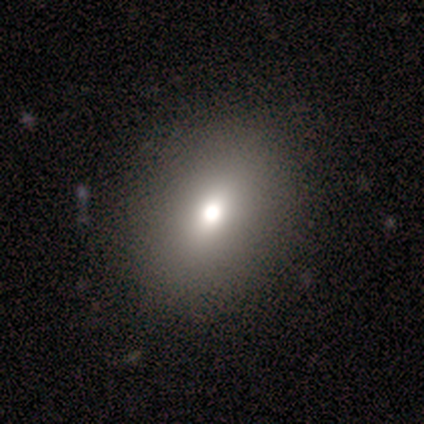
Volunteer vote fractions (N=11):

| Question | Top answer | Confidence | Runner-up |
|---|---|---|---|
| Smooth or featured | smooth | 82% | featured or disk (9%) |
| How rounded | in between | 78% | round (22%) |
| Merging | none | 100% | — |